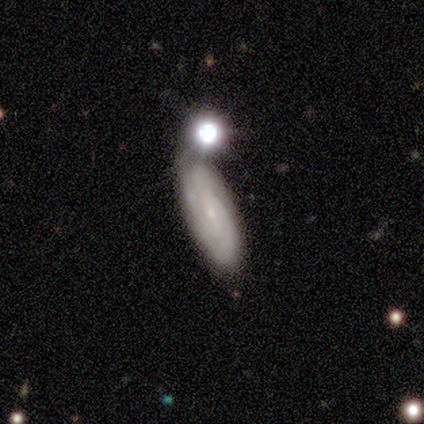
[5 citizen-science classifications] Smooth or featured?
  - featured or disk: 80% *
  - smooth: 20%
  - star or artifact: 0%
Edge-on disk?
  - no: 100% *
  - yes: 0%
Bar?
  - no: 50% *
  - strong: 25%
  - weak: 25%
Spiral arms?
  - yes: 75% *
  - no: 25%
Spiral winding?
  - tight: 100% *
  - medium: 0%
  - loose: 0%
Spiral arm count?
  - can't tell: 67% *
  - 3: 33%
  - 1: 0%
  - 2: 0%
  - 4: 0%
  - more than 4: 0%
Bulge size?
  - small: 100% *
  - dominant: 0%
  - large: 0%
  - moderate: 0%
  - none: 0%
Merging?
  - none: 60% *
  - minor disturbance: 20%
  - merger: 20%
  - major disturbance: 0%